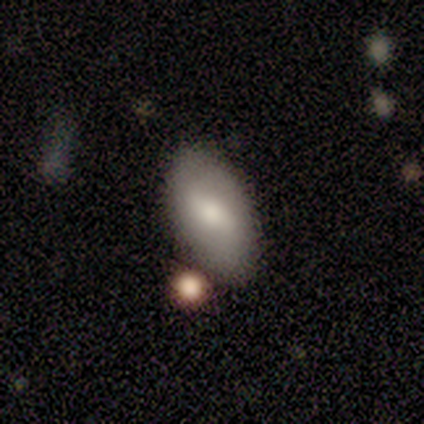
smooth 50% (tied), featured or disk 50% (tied), star or artifact 0%. Down the decision tree: how rounded — in between (100%); merging — none (75%).